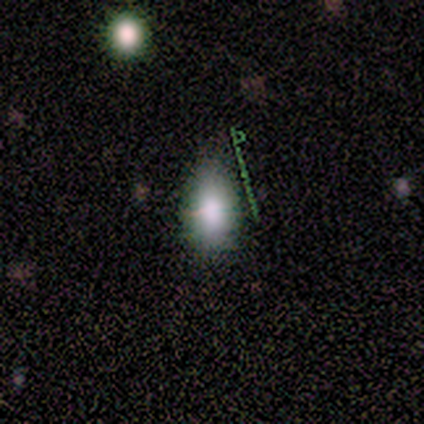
smooth 82%, star or artifact 13%, featured or disk 5%. Down the decision tree: how rounded — in between (94%); merging — none (68%).